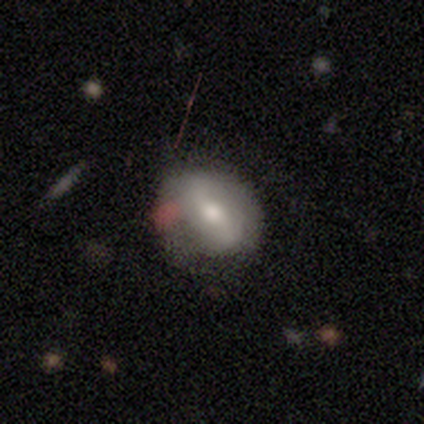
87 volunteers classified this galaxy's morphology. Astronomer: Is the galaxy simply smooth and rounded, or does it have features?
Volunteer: smooth — 54% (runner-up: featured or disk, 37%).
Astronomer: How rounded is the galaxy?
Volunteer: in between — 66%.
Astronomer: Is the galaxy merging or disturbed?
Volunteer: none — 58%.